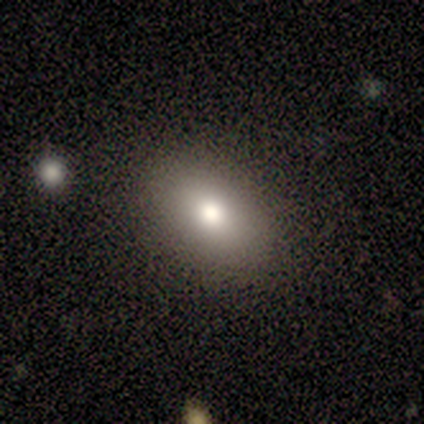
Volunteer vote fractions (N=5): A smooth galaxy with no disk features (80%) that is in between round and cigar-shaped (75%). Merging: none (80%).